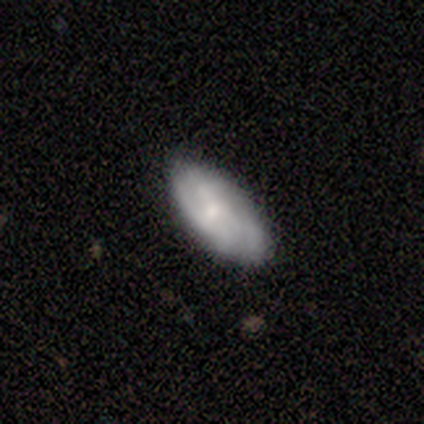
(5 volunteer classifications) Q: Smooth or featured?
A: featured or disk (60%); runner-up: smooth (40%)
Q: Edge-on disk?
A: no (100%)
Q: Bar?
A: no (67%); runner-up: weak (33%)
Q: Spiral arms?
A: yes (67%); runner-up: no (33%)
Q: Spiral winding?
A: tight (50%); tied with: medium (50%)
Q: Spiral arm count?
A: 3 (50%); tied with: can't tell (50%)
Q: Bulge size?
A: small (67%); runner-up: none (33%)
Q: Merging?
A: none (100%)